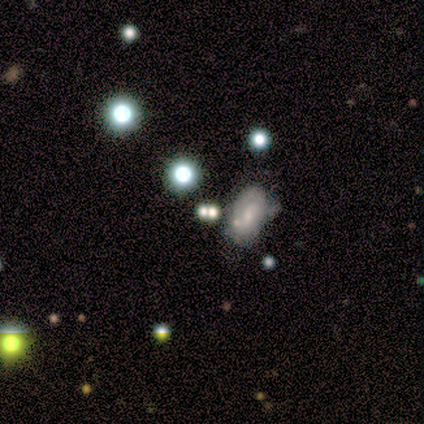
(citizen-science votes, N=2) A featured or disk galaxy (50%, tied with star or artifact) with no bar (100%), no spiral arms (100%) and a dominant central bulge (100%).

Vote fractions:
- Smooth or featured? featured or disk: 50% (tied) / star or artifact: 50% (tied) / smooth: 0%
- Edge-on disk? no: 100% / yes: 0%
- Bar? no: 100% / strong: 0% / weak: 0%
- Spiral arms? no: 100% / yes: 0%
- Bulge size? dominant: 100% / large: 0% / moderate: 0% / small: 0% / none: 0%
- Merging? merger: 100% / none: 0% / minor disturbance: 0% / major disturbance: 0%